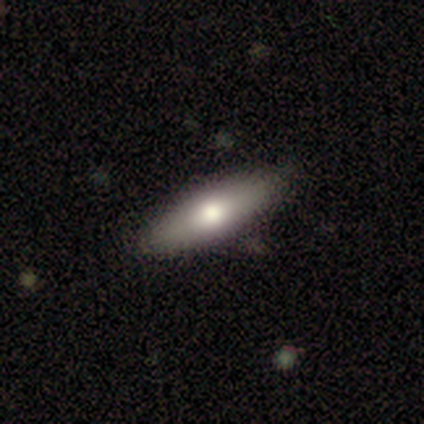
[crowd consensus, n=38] Q: Smooth or featured?
A: smooth (61%); runner-up: featured or disk (32%)
Q: How rounded?
A: in between (65%); runner-up: cigar-shaped (30%)
Q: Merging?
A: none (83%); runner-up: minor disturbance (14%)